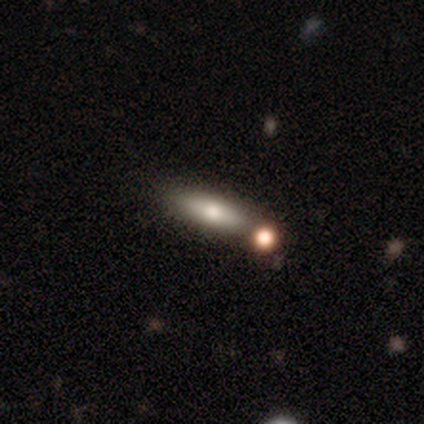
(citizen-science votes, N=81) Smooth or featured? smooth (74%)
How rounded? cigar-shaped (53%)
Merging? none (42%)